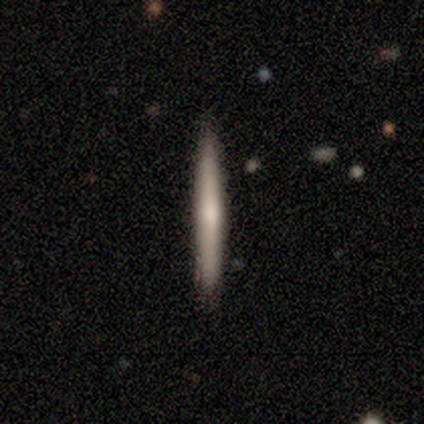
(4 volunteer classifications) Smooth or featured: featured or disk — 75% (smooth — 25%)
Edge-on disk: yes — 67% (no — 33%)
Edge-on bulge: none — 50% (tied with rounded — 50%)
Merging: none — 75% (minor disturbance — 25%)